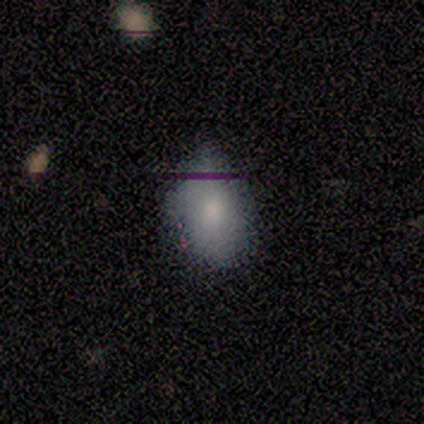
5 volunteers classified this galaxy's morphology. Smooth or featured?
  - smooth: 100% *
  - featured or disk: 0%
  - star or artifact: 0%
How rounded?
  - in between: 80% *
  - round: 20%
  - cigar-shaped: 0%
Merging?
  - none: 80% *
  - minor disturbance: 20%
  - major disturbance: 0%
  - merger: 0%